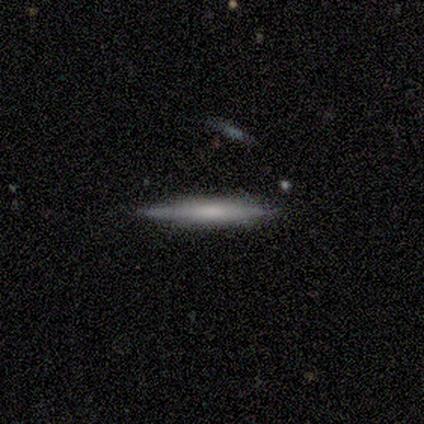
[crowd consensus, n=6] Smooth or featured? 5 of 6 (83%) said smooth. How rounded? 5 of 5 (100%) said cigar-shaped. Merging? 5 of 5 (100%) said none.